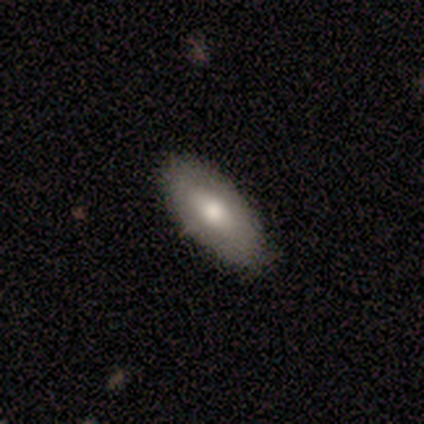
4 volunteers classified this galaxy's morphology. This is likely a smooth galaxy (75%). How rounded: clearly in between (100%). Merging: clearly none (100%).